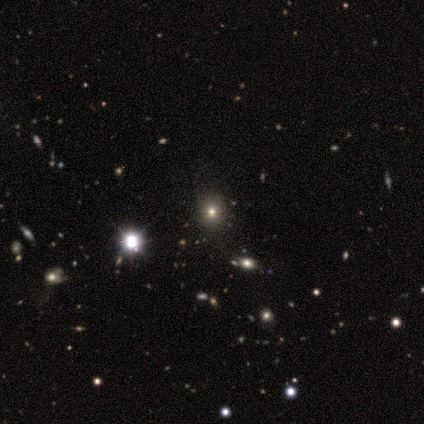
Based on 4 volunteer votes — A star or artifact, not a galaxy (50%).

Vote fractions:
- Smooth or featured? star or artifact: 50% / smooth: 25% / featured or disk: 25%